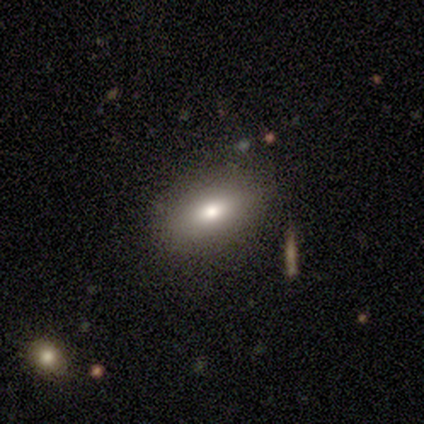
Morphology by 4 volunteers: This is clearly a smooth galaxy (100%). How rounded: likely in between (75%). Merging: clearly none (100%).